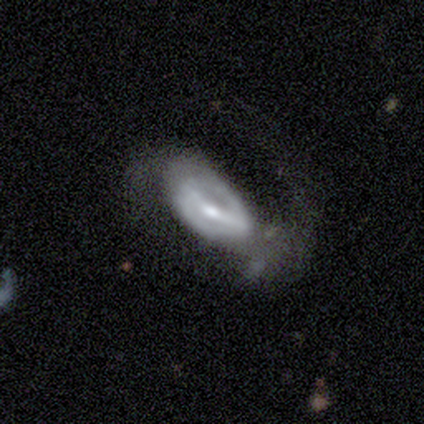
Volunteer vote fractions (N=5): Volunteers were most divided on "bar": strong: 60%, weak: 40%, no: 0%. More confident: smooth or featured — featured or disk (100%); edge-on disk — no (100%); spiral arm count — 2 (100%); spiral arms — yes (80%); merging — none (80%); bulge size — small (60%); spiral winding — tight (50%).